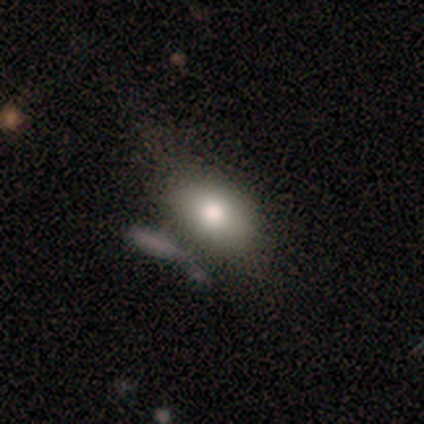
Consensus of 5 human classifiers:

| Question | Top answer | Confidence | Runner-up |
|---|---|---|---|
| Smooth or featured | smooth | 60% | featured or disk (40%) |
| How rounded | in between | 67% | round (33%) |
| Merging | none | 60% | minor disturbance (20%) |